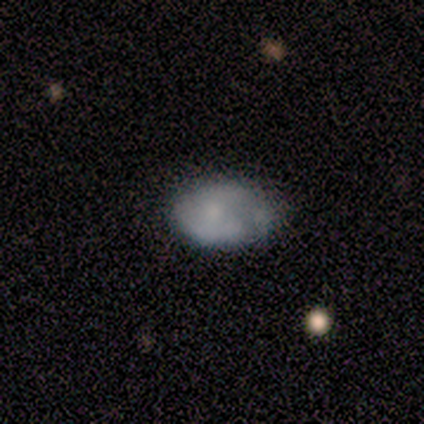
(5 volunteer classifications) Morphology: type=smooth (60%); roundness=in between (100%); merging=none (60%).